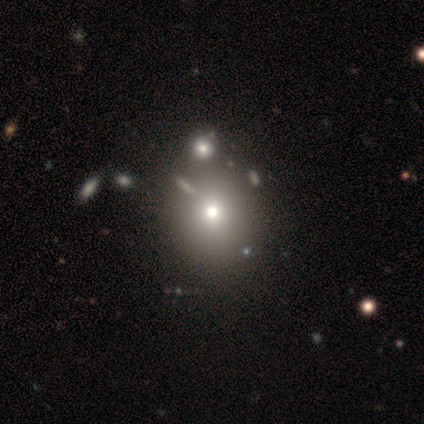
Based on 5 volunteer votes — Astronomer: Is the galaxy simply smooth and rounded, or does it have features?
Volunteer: smooth — 40%, tied with star or artifact at 40%.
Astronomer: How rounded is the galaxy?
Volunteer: round — 100%.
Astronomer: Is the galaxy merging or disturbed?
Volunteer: none — 100%.